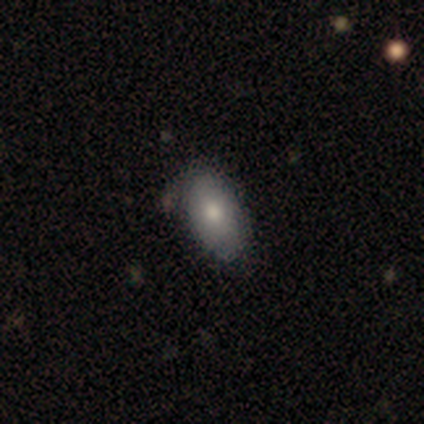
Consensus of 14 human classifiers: This appears to be a smooth galaxy with no disk features (79%) that is in between round and cigar-shaped (100%). Merging: none (77%).